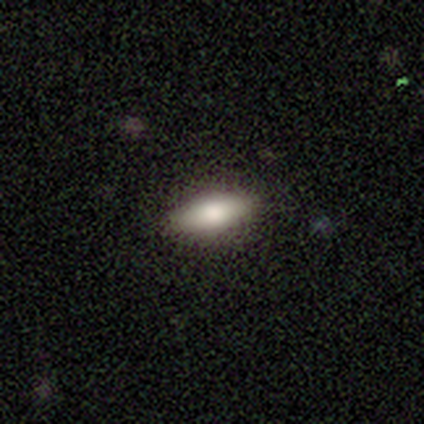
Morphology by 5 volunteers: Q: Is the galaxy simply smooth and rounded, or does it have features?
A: smooth — 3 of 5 (60%).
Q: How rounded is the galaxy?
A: in between — 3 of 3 (100%).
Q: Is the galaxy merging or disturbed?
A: none — 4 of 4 (100%).